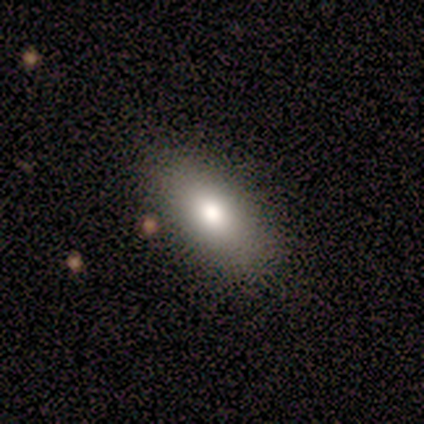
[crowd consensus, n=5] smooth-or-featured: smooth: 80% | featured or disk: 20% | star or artifact: 0%
  how-rounded: in between: 100% | round: 0% | cigar-shaped: 0%
  merging: none: 100% | minor disturbance: 0% | major disturbance: 0% | merger: 0%